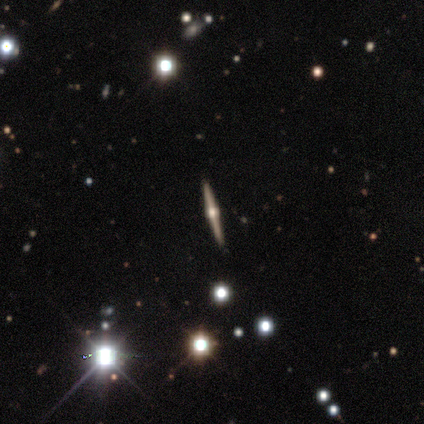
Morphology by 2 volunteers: Smooth or featured? featured or disk (100%)
Edge-on disk? yes (100%)
Edge-on bulge? rounded (100%)
Merging? none (100%)